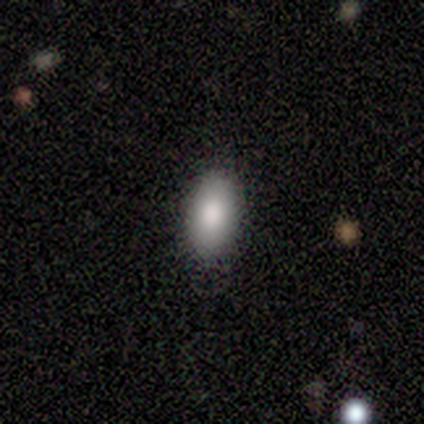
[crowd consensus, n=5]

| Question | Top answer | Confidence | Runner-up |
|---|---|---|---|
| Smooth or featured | smooth | 60% | featured or disk (40%) |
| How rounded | in between | 67% | cigar-shaped (33%) |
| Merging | none | 100% | — |